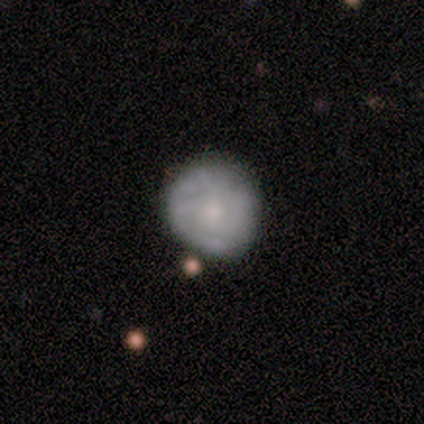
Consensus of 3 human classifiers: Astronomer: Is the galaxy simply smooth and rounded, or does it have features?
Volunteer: featured or disk — 67%.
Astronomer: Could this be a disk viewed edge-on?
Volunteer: no — 100%.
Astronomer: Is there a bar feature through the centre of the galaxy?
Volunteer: no — 100%.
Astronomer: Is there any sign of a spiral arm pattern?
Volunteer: yes — 100%.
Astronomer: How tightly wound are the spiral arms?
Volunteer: tight — 100%.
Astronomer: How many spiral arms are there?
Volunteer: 2 — 50%, tied with 3 at 50%.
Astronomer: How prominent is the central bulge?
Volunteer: moderate — 50%, tied with none at 50%.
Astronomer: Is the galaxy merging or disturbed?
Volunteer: none — 100%.